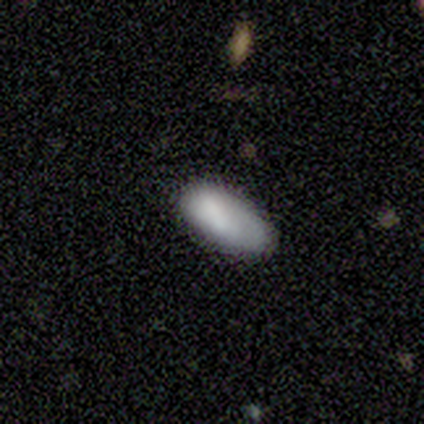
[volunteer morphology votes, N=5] smooth_or_featured: smooth (p=0.80) [alt: featured or disk p=0.20]
how_rounded: in between (p=1.00)
merging: none (p=0.40) [tied with: major disturbance p=0.40]